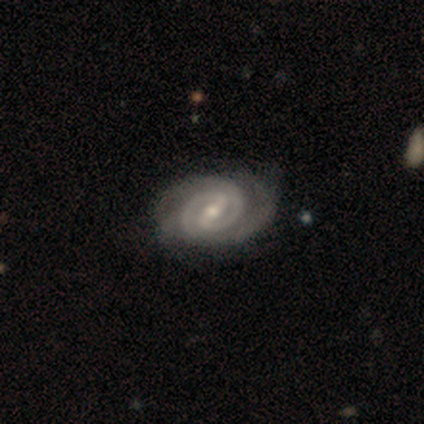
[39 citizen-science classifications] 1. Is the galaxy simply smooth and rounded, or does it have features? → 92% featured or disk, 5% star or artifact, 3% smooth.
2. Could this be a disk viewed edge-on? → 97% no, 3% yes.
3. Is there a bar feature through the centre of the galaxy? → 54% strong, 40% weak, 6% no.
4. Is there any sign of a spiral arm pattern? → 100% yes, 0% no.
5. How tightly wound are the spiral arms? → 63% tight, 34% medium, 3% loose.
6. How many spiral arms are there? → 89% 2, 6% can't tell, 3% 3, 3% 4, 0% 1, 0% more than 4.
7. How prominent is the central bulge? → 60% moderate, 34% small, 6% none, 0% dominant, 0% large.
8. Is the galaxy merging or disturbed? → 59% none, 8% minor disturbance, 8% merger, 5% major disturbance.